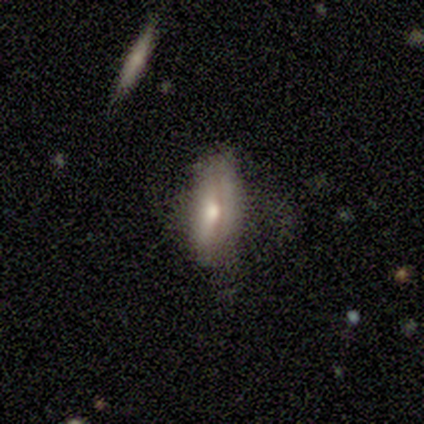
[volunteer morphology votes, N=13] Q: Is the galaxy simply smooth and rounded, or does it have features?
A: smooth — 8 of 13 (62%).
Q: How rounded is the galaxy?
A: in between — 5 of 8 (62%).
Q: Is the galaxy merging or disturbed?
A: none — 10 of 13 (77%).